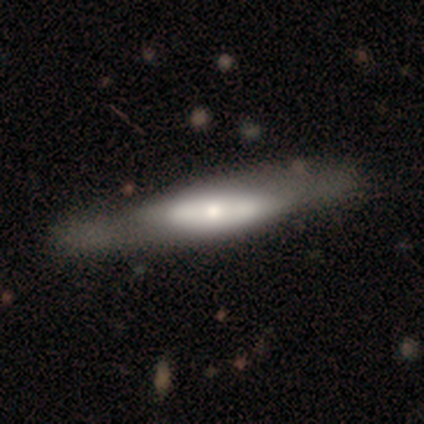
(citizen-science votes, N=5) Q: Smooth or featured?
A: smooth (80%); runner-up: featured or disk (20%)
Q: How rounded?
A: cigar-shaped (75%); runner-up: in between (25%)
Q: Merging?
A: none (80%); runner-up: minor disturbance (20%)